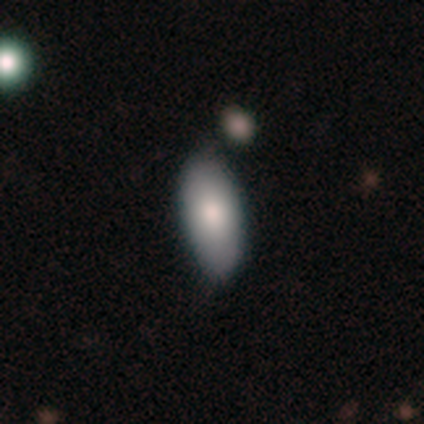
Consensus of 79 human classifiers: Smooth or featured? 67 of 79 (85%) said smooth. How rounded? 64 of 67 (96%) said in between. Merging? 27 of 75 (36%) said none.